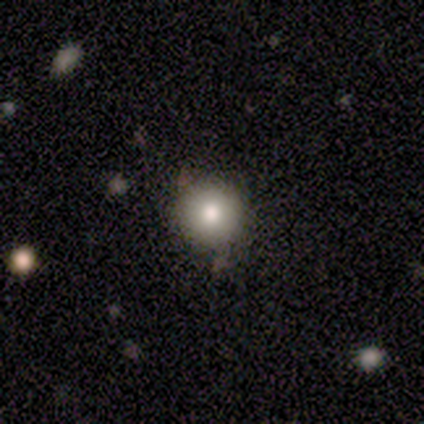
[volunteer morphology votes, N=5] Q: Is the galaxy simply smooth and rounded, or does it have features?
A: smooth — 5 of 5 (100%).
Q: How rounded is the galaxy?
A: round — 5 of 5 (100%).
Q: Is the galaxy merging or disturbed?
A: none — 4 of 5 (80%).